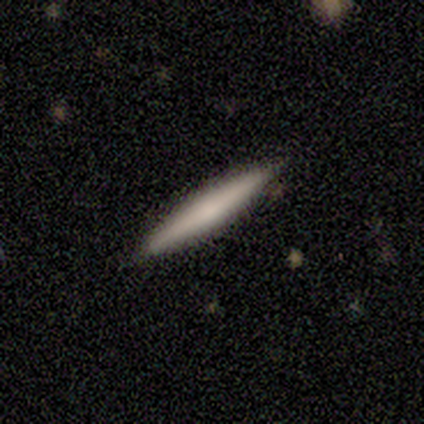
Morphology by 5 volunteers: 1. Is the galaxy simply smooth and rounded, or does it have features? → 80% smooth, 20% featured or disk, 0% star or artifact.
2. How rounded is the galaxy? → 100% cigar-shaped, 0% round, 0% in between.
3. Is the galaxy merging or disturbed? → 100% none, 0% minor disturbance, 0% major disturbance, 0% merger.